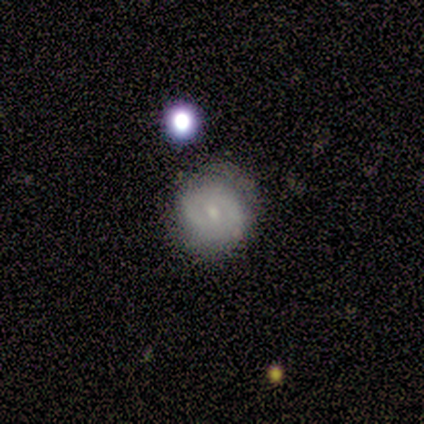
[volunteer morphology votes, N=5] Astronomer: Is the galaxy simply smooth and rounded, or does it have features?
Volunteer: smooth — 40%, tied with featured or disk at 40%.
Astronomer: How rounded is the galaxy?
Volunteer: round — 100%.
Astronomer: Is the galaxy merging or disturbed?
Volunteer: none — 75%.